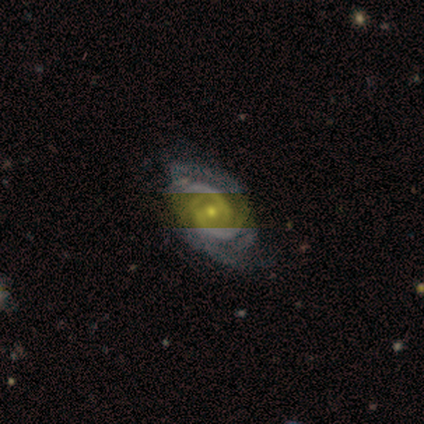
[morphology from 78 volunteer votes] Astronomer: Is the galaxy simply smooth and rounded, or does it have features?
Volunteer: featured or disk — 87%.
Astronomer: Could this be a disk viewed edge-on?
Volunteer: no — 100%.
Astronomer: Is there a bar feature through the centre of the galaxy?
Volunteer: no — 44% (runner-up: weak, 40%).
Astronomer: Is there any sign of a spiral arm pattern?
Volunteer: yes — 100%.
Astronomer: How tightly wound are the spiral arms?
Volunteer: tight — 49% (runner-up: medium, 44%).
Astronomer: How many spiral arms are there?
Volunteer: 2 — 44% (runner-up: can't tell, 24%).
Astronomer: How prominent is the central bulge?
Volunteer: small — 50% (runner-up: moderate, 44%).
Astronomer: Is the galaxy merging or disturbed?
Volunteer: none — 33% (runner-up: minor disturbance, 14%).